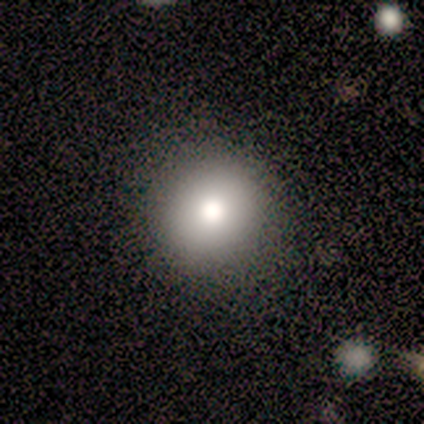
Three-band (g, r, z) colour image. It shows a smooth galaxy with no disk features (75%) that is round (100%). Merging: none (100%).